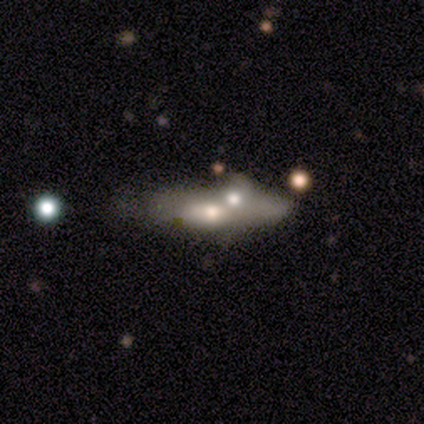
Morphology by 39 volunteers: smooth_or_featured: featured or disk (p=0.49) [alt: smooth p=0.38]
disk_edge_on: yes (p=0.53) [alt: no p=0.47]
edge_on_bulge: rounded (p=0.90) [alt: none p=0.10]
merging: merger (p=0.62) [alt: none p=0.09]